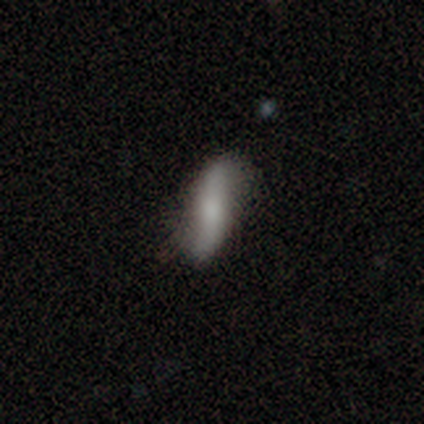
Smooth or featured: featured or disk — 58% (smooth — 38%)
Edge-on disk: no — 75% (yes — 25%)
Bar: no — 52% (strong — 33%)
Spiral arms: yes — 86% (no — 14%)
Spiral winding: loose — 100%
Spiral arm count: 2 — 100%
Bulge size: moderate — 38% (tied with small — 38%)
Merging: none — 78% (minor disturbance — 17%)